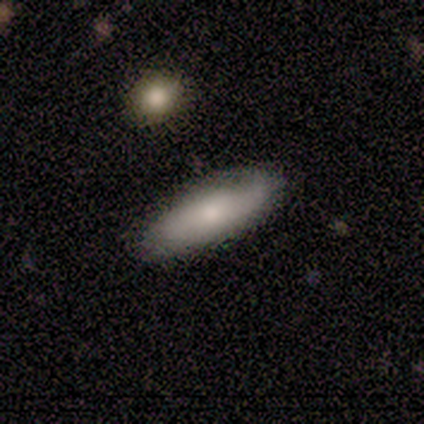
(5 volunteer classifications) Q: Smooth or featured?
A: smooth (100%)
Q: How rounded?
A: in between (80%); runner-up: cigar-shaped (20%)
Q: Merging?
A: none (60%); runner-up: minor disturbance (40%)